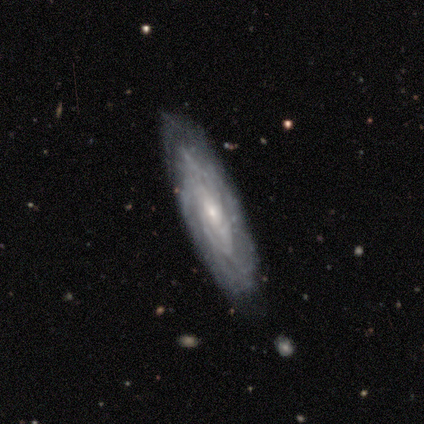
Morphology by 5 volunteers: A featured or disk galaxy (100%) with no bar (75%), 3 (50%, tied with can't tell) tight (75%) spiral arms (100%) and a small central bulge (100%).

Vote fractions:
- Smooth or featured? featured or disk: 100% / smooth: 0% / star or artifact: 0%
- Edge-on disk? no: 80% / yes: 20%
- Bar? no: 75% / strong: 25% / weak: 0%
- Spiral arms? yes: 100% / no: 0%
- Spiral winding? tight: 75% / medium: 25% / loose: 0%
- Spiral arm count? 3: 50% (tied) / can't tell: 50% (tied) / 1: 0% / 2: 0% / 4: 0% / more than 4: 0%
- Bulge size? small: 100% / dominant: 0% / large: 0% / moderate: 0% / none: 0%
- Merging? none: 100% / minor disturbance: 0% / major disturbance: 0% / merger: 0%